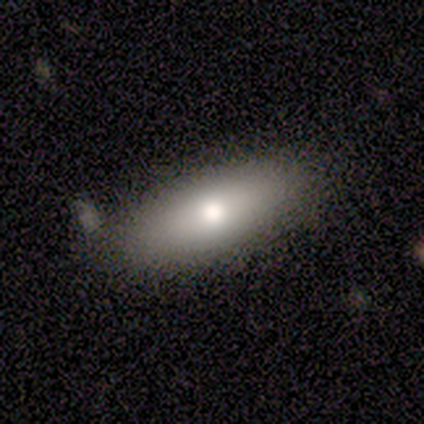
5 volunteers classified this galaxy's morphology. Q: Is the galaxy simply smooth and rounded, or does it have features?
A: smooth — 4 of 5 (80%).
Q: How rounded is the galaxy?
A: in between — 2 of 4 (50%).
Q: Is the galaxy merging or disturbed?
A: none — 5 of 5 (100%).